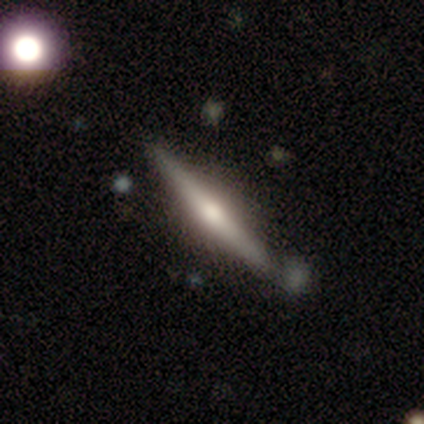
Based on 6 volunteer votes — Smooth or featured? featured or disk (100%)
Edge-on disk? yes (100%)
Edge-on bulge? rounded (100%)
Merging? none (83%)